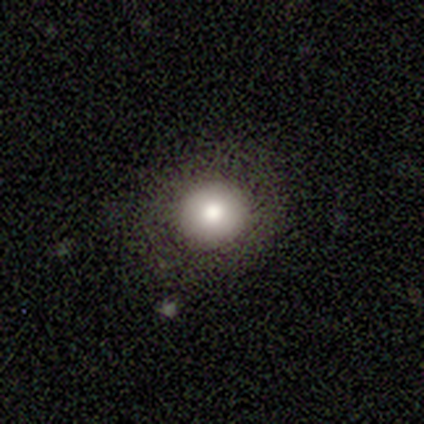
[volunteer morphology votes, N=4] Q: Smooth or featured?
A: smooth (75%); runner-up: featured or disk (25%)
Q: How rounded?
A: round (100%)
Q: Merging?
A: none (100%)